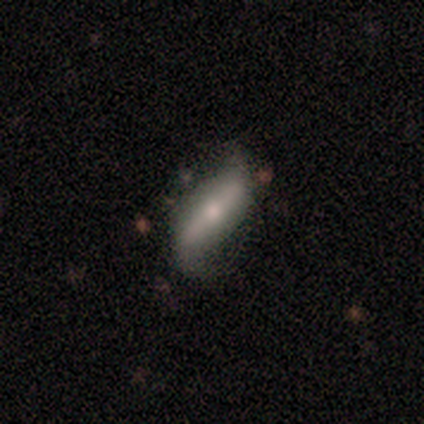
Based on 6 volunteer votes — Volunteers were most divided on "edge-on disk": yes: 60%, no: 40%. More confident: edge-on bulge — rounded (100%); smooth or featured — featured or disk (83%); merging — none (67%).